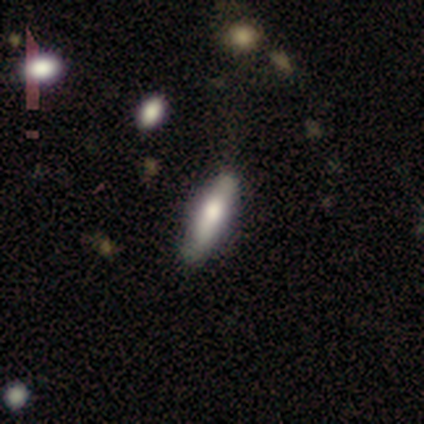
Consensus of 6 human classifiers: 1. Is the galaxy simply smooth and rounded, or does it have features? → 50% smooth (tied), 50% featured or disk (tied), 0% star or artifact.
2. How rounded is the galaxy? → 33% round (tied), 33% in between (tied), 33% cigar-shaped (tied).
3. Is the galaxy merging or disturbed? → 50% none, 33% minor disturbance, 17% major disturbance, 0% merger.